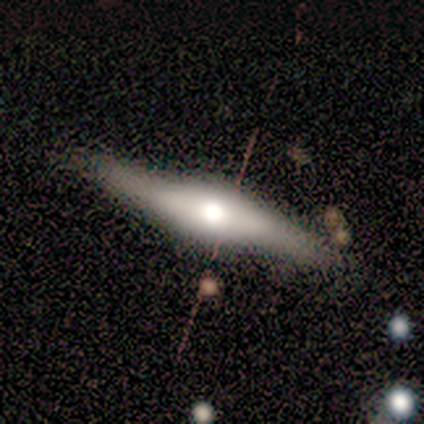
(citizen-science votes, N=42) Morphology: type=featured or disk (62%); edge-on=yes (81%); edge-on bulge=rounded (71%); merging=none (85%).